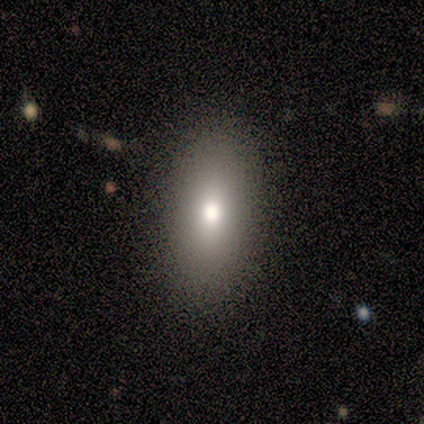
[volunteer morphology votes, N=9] smooth_or_featured: smooth (p=0.78) [alt: star or artifact p=0.22]
how_rounded: in between (p=0.86) [alt: round p=0.14]
merging: none (p=0.86) [alt: minor disturbance p=0.14]